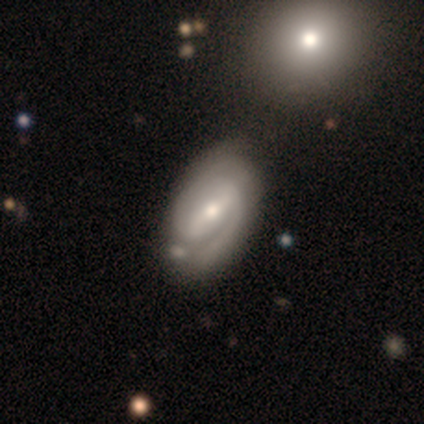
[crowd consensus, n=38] This is likely a featured or disk galaxy (68%). It is clearly not viewed edge-on (100%). Bar: possibly weak (50%). Spiral arm pattern: clearly yes (96%). Spiral arm count: clearly 2 (80%). Spiral winding: likely tight (60%). Central bulge: possibly moderate (54%). Merging: likely none (74%).